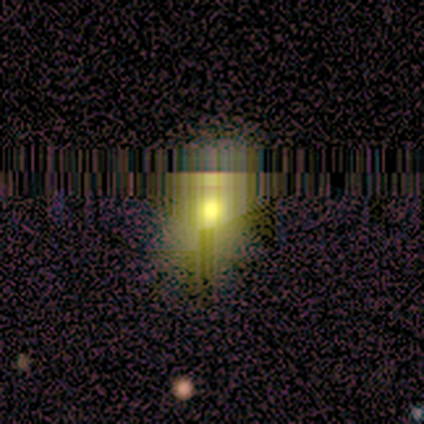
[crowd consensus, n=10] This appears to be a smooth galaxy with no disk features (50%) that is in between round and cigar-shaped (60%). Merging: none (86%).